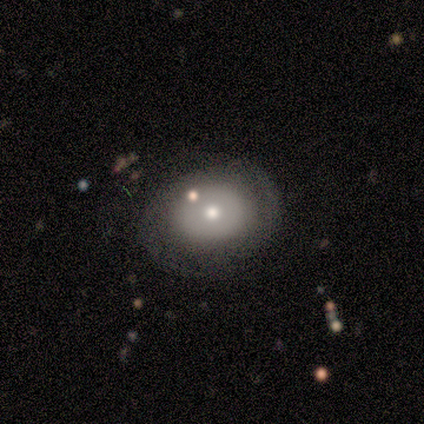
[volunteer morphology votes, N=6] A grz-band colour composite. It shows a smooth galaxy with no disk features (83%) that is in between round and cigar-shaped (60%). Merging: none (67%).